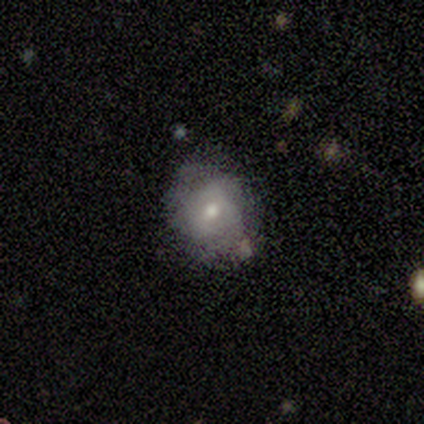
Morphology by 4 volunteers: smooth_or_featured: featured or disk (p=0.75) [alt: smooth p=0.25]
disk_edge_on: no (p=1.00)
bar: no (p=0.67) [alt: weak p=0.33]
has_spiral_arms: no (p=0.67) [alt: yes p=0.33]
bulge_size: dominant (p=0.33) [tied with: moderate p=0.33, small p=0.33]
merging: none (p=0.75) [alt: minor disturbance p=0.25]